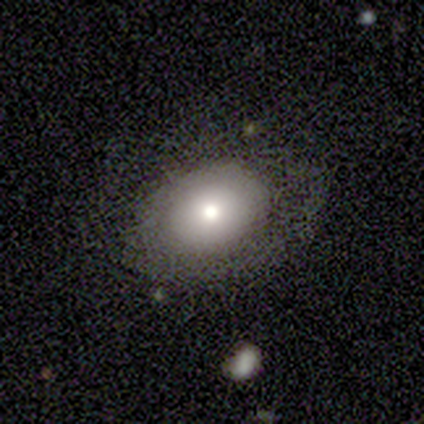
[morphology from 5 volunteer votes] Overall: smooth (100%). How rounded: in between (60%; round 40%). Merging: none (80%).